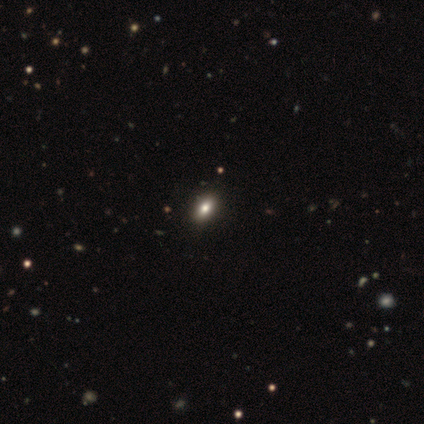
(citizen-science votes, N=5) smooth-or-featured: smooth: 40% (tied) | star or artifact: 40% (tied) | featured or disk: 20%
  how-rounded: in between: 100% | round: 0% | cigar-shaped: 0%
  merging: none: 100% | minor disturbance: 0% | major disturbance: 0% | merger: 0%